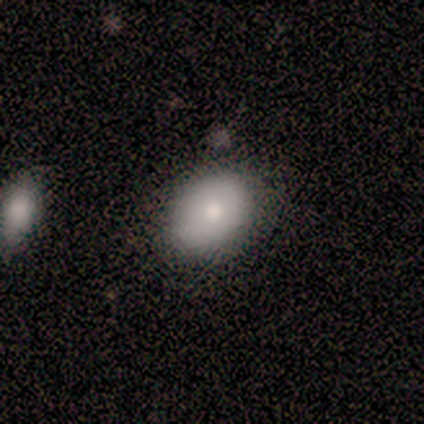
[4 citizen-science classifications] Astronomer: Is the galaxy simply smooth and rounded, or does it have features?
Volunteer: smooth — 75%.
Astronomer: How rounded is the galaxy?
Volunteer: in between — 67%.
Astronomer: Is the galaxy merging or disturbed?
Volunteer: none — 100%.